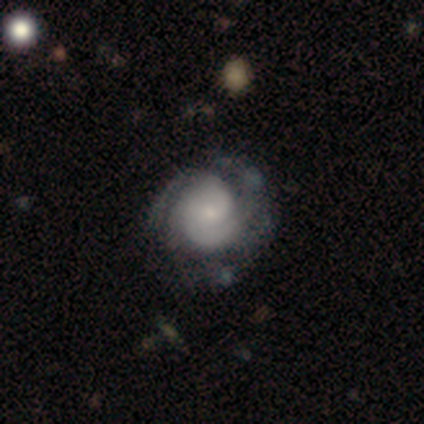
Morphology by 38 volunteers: Smooth or featured? 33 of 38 (87%) said featured or disk. Edge-on disk? 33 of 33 (100%) said no. Bar? 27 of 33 (82%) said no. Spiral arms? 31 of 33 (94%) said yes. Spiral winding? 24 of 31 (77%) said tight. Spiral arm count? 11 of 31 (35%) said 2. Bulge size? 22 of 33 (67%) said small. Merging? 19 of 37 (51%) said none.